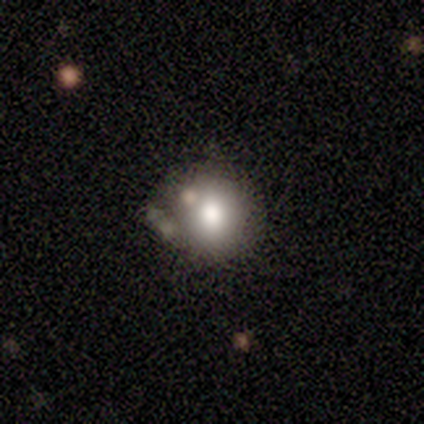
Q: Smooth or featured?
A: smooth (60%); runner-up: featured or disk (30%)
Q: How rounded?
A: round (67%); runner-up: in between (33%)
Q: Merging?
A: none (78%); runner-up: minor disturbance (11%)